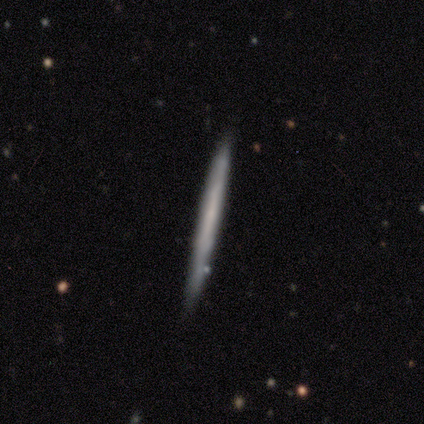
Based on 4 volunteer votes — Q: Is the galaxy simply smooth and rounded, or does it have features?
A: featured or disk — 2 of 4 (50%).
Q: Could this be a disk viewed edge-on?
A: yes — 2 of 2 (100%).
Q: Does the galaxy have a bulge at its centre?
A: none — 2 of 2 (100%).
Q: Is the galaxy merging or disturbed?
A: none — 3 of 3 (100%).